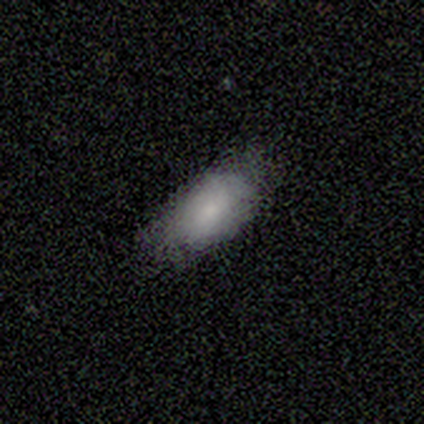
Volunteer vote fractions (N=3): Smooth or featured?
  - smooth: 100% *
  - featured or disk: 0%
  - star or artifact: 0%
How rounded?
  - in between: 100% *
  - round: 0%
  - cigar-shaped: 0%
Merging?
  - none: 67% *
  - minor disturbance: 33%
  - major disturbance: 0%
  - merger: 0%